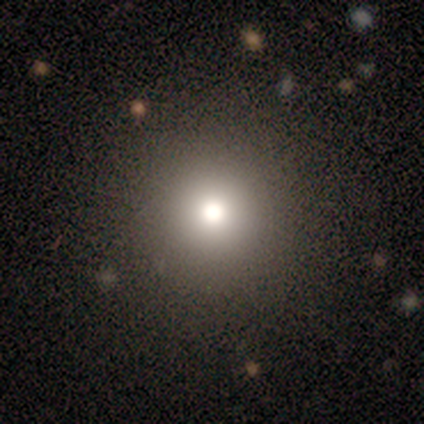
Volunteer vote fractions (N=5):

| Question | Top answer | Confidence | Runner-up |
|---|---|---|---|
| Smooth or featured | smooth | 60% | featured or disk (20%) |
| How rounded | round | 100% | — |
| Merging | none | 100% | — |